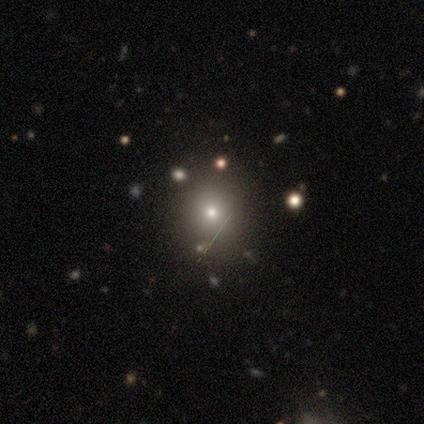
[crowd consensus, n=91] Smooth or featured? 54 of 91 (59%) said smooth. How rounded? 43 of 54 (80%) said round. Merging? 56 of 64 (88%) said none.